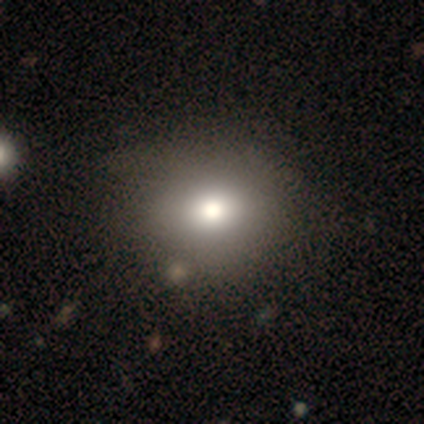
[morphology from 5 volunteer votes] Smooth or featured: smooth — 80% (featured or disk — 20%)
How rounded: round — 75% (in between — 25%)
Merging: none — 60% (minor disturbance — 20%)